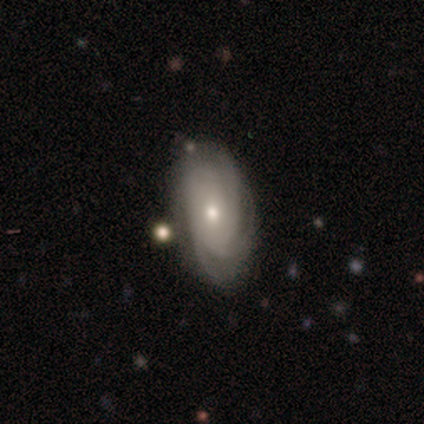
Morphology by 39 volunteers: Smooth or featured: featured or disk — 90% (smooth — 10%)
Edge-on disk: no — 97% (yes — 3%)
Bar: no — 79% (weak — 18%)
Spiral arms: yes — 97% (no — 3%)
Spiral winding: tight — 76% (medium — 15%)
Spiral arm count: can't tell — 42% (3 — 21%)
Bulge size: small — 56% (moderate — 38%)
Merging: none — 77% (minor disturbance — 13%)